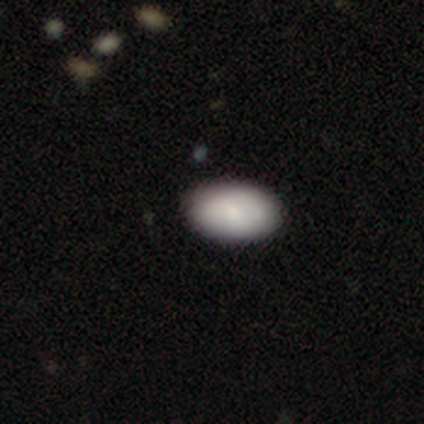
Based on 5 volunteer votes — Q: Smooth or featured?
A: smooth (100%)
Q: How rounded?
A: in between (100%)
Q: Merging?
A: minor disturbance (60%); runner-up: none (40%)